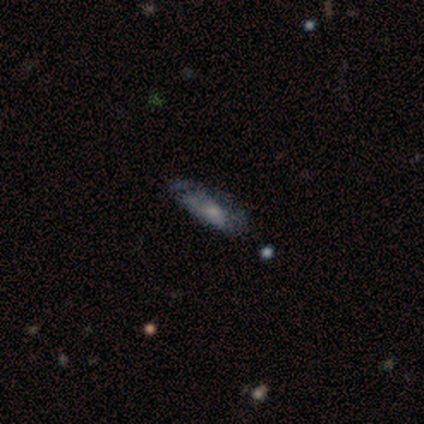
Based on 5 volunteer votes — This is likely a smooth galaxy (60%). How rounded: likely in between (67%). Merging: clearly none (80%).